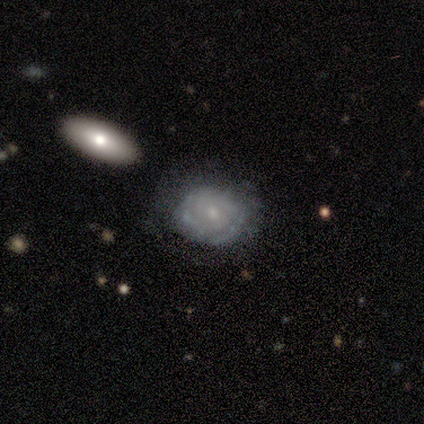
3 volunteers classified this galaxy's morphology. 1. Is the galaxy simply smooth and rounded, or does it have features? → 100% featured or disk, 0% smooth, 0% star or artifact.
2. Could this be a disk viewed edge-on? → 100% no, 0% yes.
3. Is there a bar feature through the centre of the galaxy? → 100% no, 0% strong, 0% weak.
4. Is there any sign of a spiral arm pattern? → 67% yes, 33% no.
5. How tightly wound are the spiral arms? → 100% loose, 0% tight, 0% medium.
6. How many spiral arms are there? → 50% 1 (tied), 50% can't tell (tied), 0% 2, 0% 3, 0% 4, 0% more than 4.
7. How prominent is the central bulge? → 67% moderate, 33% small, 0% dominant, 0% large, 0% none.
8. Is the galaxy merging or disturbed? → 100% none, 0% minor disturbance, 0% major disturbance, 0% merger.